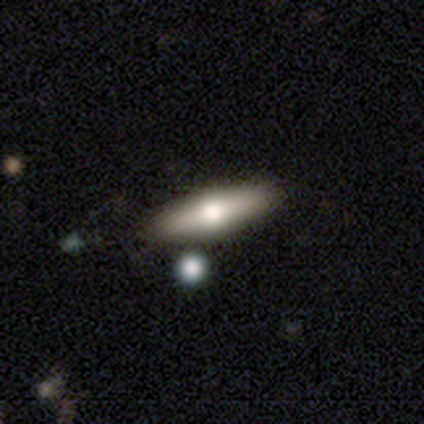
Overall: featured or disk (60%; smooth 40%). Edge-on disk: yes (100%). Edge-on bulge: rounded (100%). Merging: none (80%).